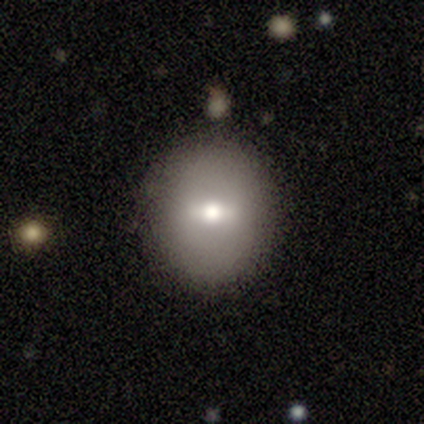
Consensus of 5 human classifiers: Smooth or featured?
  - smooth: 60% *
  - featured or disk: 20%
  - star or artifact: 20%
How rounded?
  - round: 100% *
  - in between: 0%
  - cigar-shaped: 0%
Merging?
  - none: 100% *
  - minor disturbance: 0%
  - major disturbance: 0%
  - merger: 0%